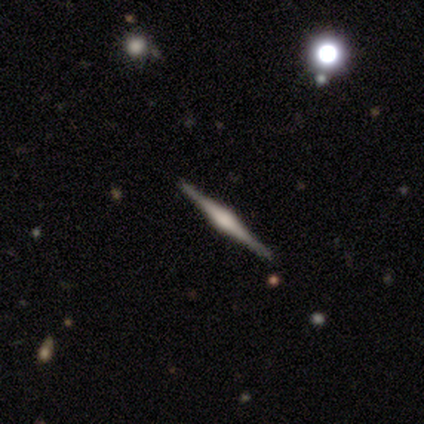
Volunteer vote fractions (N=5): Smooth or featured? 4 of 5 (80%) said featured or disk. Edge-on disk? 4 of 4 (100%) said yes. Edge-on bulge? 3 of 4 (75%) said rounded. Merging? 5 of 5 (100%) said none.